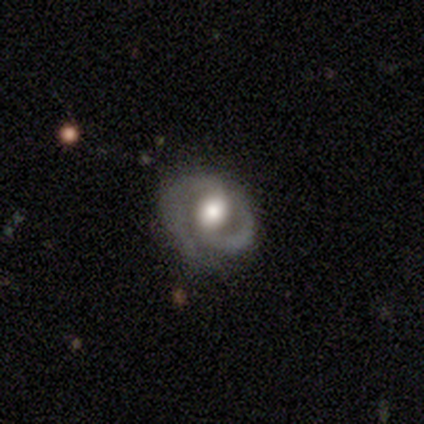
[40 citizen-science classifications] Volunteers were most divided on "spiral winding": medium: 42%, tight: 38%, loose: 19%. More confident: edge-on disk — no (94%); smooth or featured — featured or disk (88%); spiral arm count — 2 (85%); spiral arms — yes (79%); merging — none (76%); bar — no (61%); bulge size — moderate (52%).